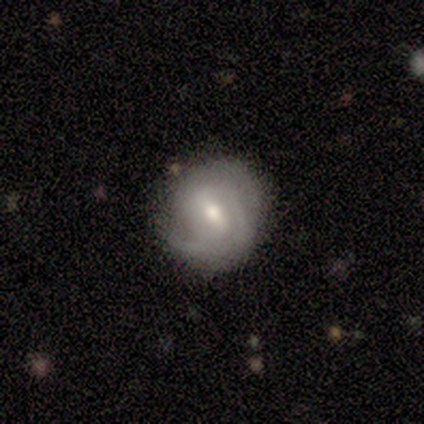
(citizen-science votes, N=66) This is likely a featured or disk galaxy (76%). It is clearly not viewed edge-on (100%). Bar: possibly weak (56%). Spiral arm pattern: clearly yes (90%). Spiral arm count: possibly 2 (49%). Spiral winding: possibly tight (56%). Central bulge: likely moderate (70%). Merging: likely none (67%).